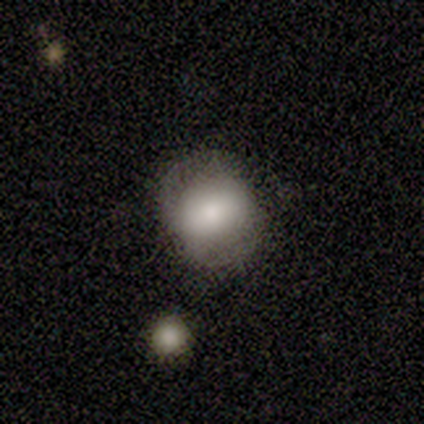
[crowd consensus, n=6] Smooth or featured: smooth — 100%
How rounded: round — 67% (in between — 33%)
Merging: none — 67% (minor disturbance — 17%)